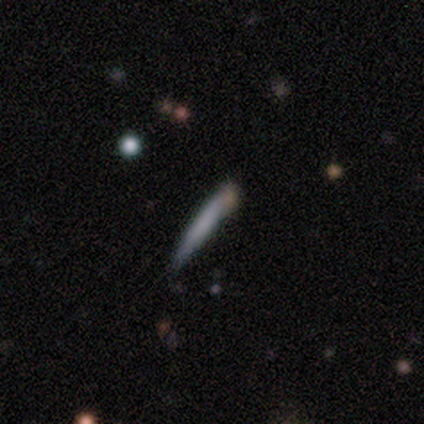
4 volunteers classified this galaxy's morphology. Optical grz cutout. It shows a smooth galaxy with no disk features (75%) that is cigar-shaped (100%). Merging: none (50%, tied with minor disturbance).